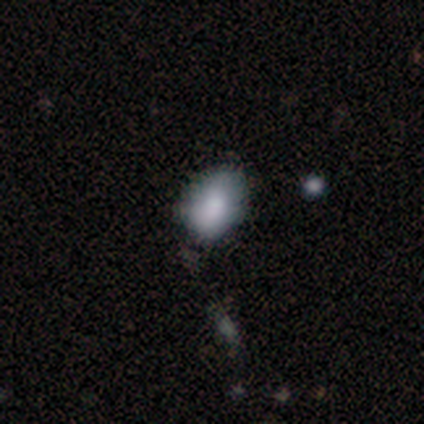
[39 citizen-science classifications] A smooth galaxy with no disk features (77%) that is in between round and cigar-shaped (93%).

Vote fractions:
- Smooth or featured? smooth: 77% / star or artifact: 15% / featured or disk: 8%
- How rounded? in between: 93% / round: 7% / cigar-shaped: 0%
- Merging? none: 64% / minor disturbance: 30% / major disturbance: 6% / merger: 0%